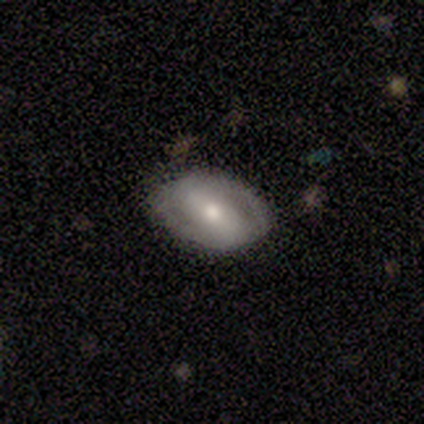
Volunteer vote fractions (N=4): This is possibly a smooth galaxy (50%, tied with featured or disk). How rounded: clearly in between (100%). Merging: possibly none (50%).